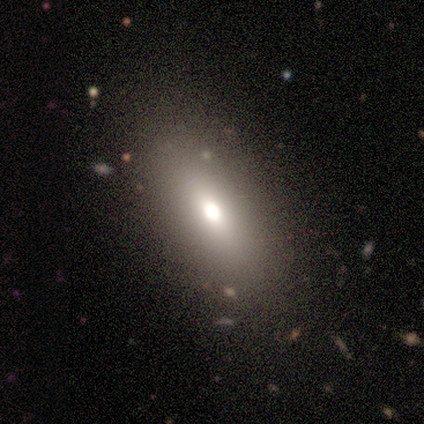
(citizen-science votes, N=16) Overall: smooth (75%). How rounded: in between (83%). Merging: none (62%; minor disturbance 31%).